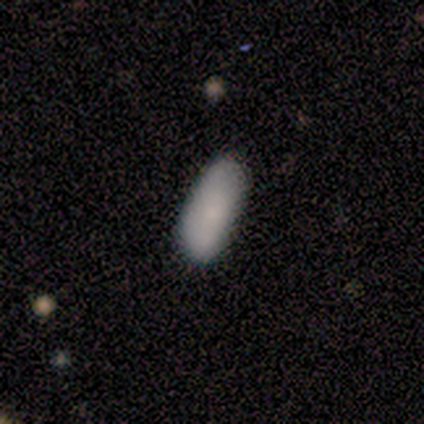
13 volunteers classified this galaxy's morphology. This is clearly a smooth galaxy (100%). How rounded: likely in between (69%). Merging: likely none (77%).